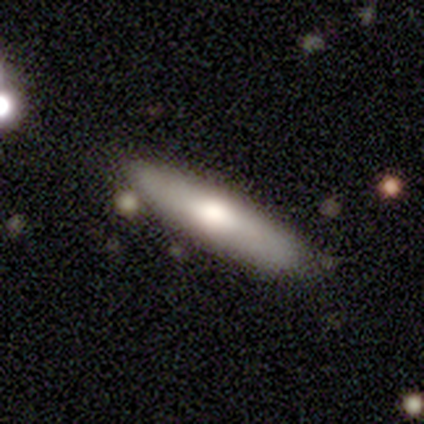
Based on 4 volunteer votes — Smooth or featured: smooth — 50% (tied with featured or disk — 50%)
How rounded: cigar-shaped — 100%
Merging: none — 75% (merger — 25%)